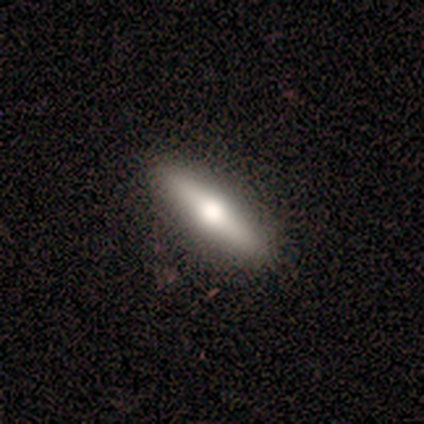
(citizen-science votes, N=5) Overall: featured or disk (80%). Edge-on disk: yes (100%). Edge-on bulge: rounded (100%). Merging: none (100%).